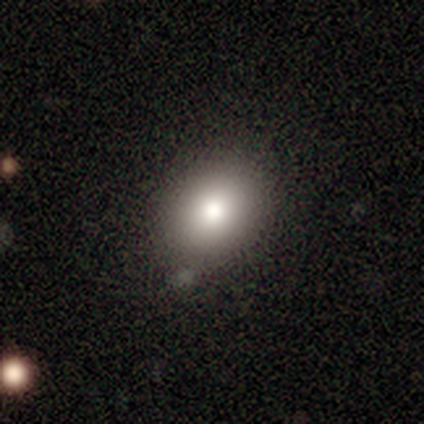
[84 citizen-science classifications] A smooth galaxy with no disk features (86%) that is in between round and cigar-shaped (56%).

Vote fractions:
- Smooth or featured? smooth: 86% / star or artifact: 8% / featured or disk: 6%
- How rounded? in between: 56% / round: 43% / cigar-shaped: 1%
- Merging? none: 73% / minor disturbance: 23% / major disturbance: 3% / merger: 1%